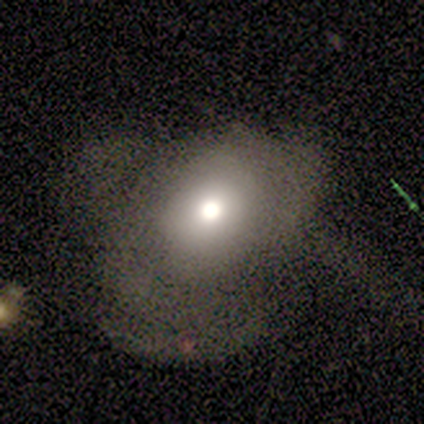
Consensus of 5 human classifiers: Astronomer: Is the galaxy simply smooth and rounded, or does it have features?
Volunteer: smooth — 60% (runner-up: featured or disk, 40%).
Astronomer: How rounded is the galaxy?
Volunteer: round — 33%, tied with in between and cigar-shaped at 33%.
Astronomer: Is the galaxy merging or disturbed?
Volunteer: major disturbance — 60% (runner-up: none, 40%).